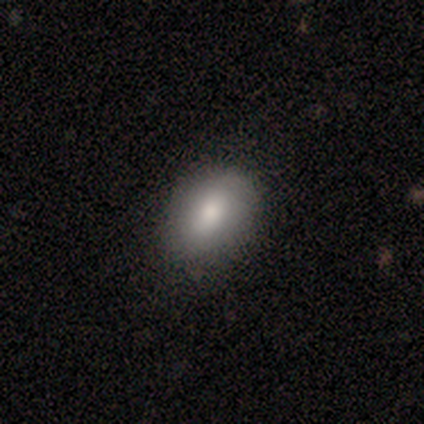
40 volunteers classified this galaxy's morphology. Overall: smooth (80%). How rounded: in between (81%). Merging: none (68%; minor disturbance 32%).